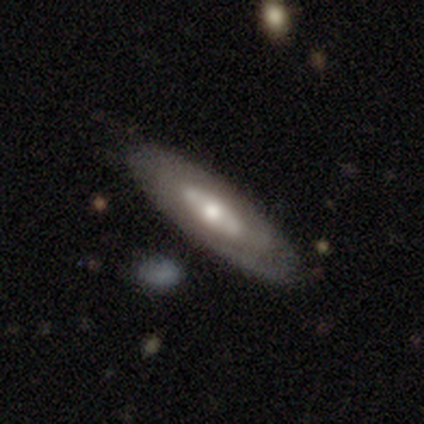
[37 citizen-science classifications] Volunteers were most divided on "spiral arms": no: 67%, yes: 33%. More confident: merging — none (86%); bulge size — moderate (81%); smooth or featured — featured or disk (76%); edge-on disk — no (75%); bar — no (67%).